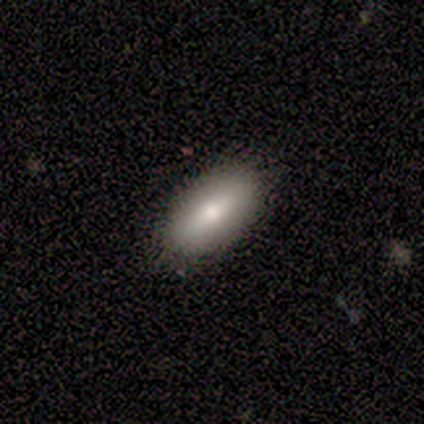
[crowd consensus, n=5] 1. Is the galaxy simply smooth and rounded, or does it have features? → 100% smooth, 0% featured or disk, 0% star or artifact.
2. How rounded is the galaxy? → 80% in between, 20% cigar-shaped, 0% round.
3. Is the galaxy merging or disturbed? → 100% none, 0% minor disturbance, 0% major disturbance, 0% merger.